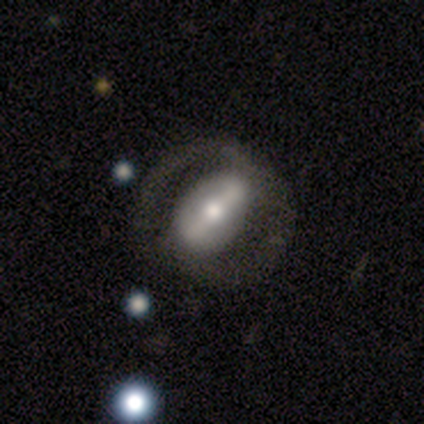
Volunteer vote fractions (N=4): A featured or disk galaxy (75%) with a strong bar (33%, tied with weak and no), no spiral arms (67%) and a moderate central bulge (67%). Merging: minor disturbance (50%).